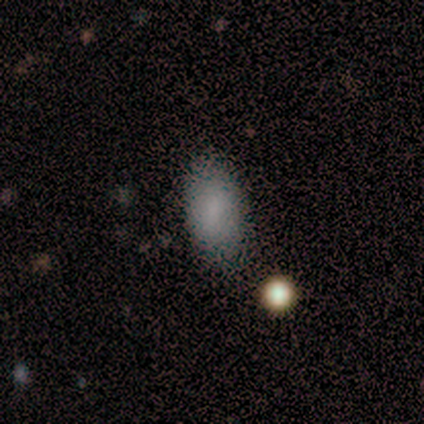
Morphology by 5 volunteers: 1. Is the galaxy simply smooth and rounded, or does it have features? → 80% smooth, 20% featured or disk, 0% star or artifact.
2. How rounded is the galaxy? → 100% in between, 0% round, 0% cigar-shaped.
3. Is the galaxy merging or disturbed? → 80% none, 20% minor disturbance, 0% major disturbance, 0% merger.